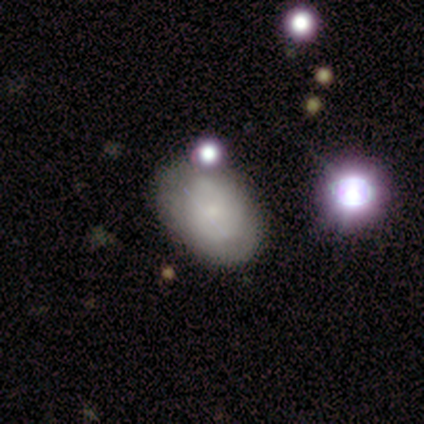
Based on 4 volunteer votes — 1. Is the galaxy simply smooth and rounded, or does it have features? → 75% smooth, 25% featured or disk, 0% star or artifact.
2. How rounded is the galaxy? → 100% in between, 0% round, 0% cigar-shaped.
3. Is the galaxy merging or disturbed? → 50% none, 25% major disturbance, 25% merger, 0% minor disturbance.